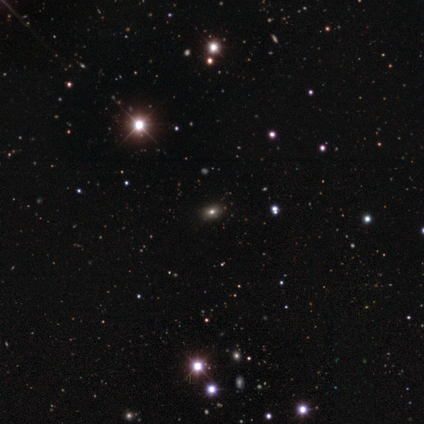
smooth_or_featured: star or artifact (p=0.83) [alt: smooth p=0.17]